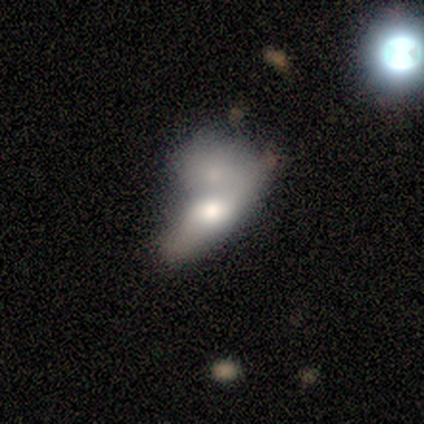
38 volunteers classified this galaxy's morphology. This is possibly a smooth galaxy (50%). How rounded: possibly in between (58%). Merging: likely merger (67%).